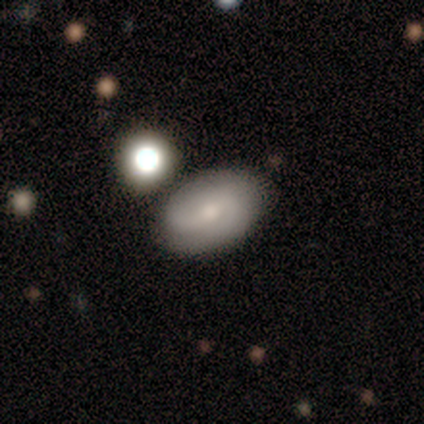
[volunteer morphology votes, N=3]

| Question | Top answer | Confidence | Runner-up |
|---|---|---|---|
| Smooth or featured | smooth | 100% | — |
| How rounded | in between | 100% | — |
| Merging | none | 100% | — |